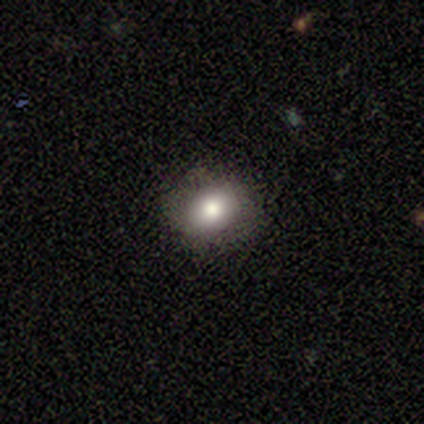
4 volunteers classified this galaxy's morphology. Volunteers were most divided on "bulge size" (2-way tie): moderate: 50%, small: 50%, dominant: 0%, large: 0%, none: 0%. More confident: edge-on disk — no (100%); bar — no (100%); spiral arms — no (100%); merging — none (100%); smooth or featured — featured or disk (50%).